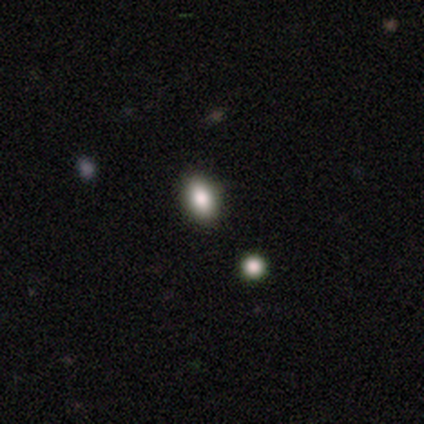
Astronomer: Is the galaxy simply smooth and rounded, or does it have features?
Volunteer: smooth — 100%.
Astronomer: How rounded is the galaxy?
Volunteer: in between — 100%.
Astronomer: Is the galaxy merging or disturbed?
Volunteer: none — 100%.